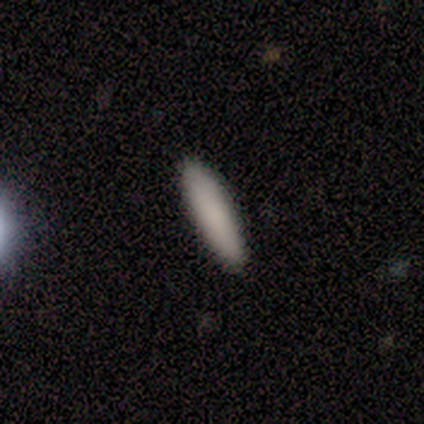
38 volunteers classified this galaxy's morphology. Smooth or featured?
  - smooth: 84% *
  - featured or disk: 13%
  - star or artifact: 3%
How rounded?
  - cigar-shaped: 81% *
  - in between: 19%
  - round: 0%
Merging?
  - none: 86% *
  - minor disturbance: 8%
  - major disturbance: 5%
  - merger: 0%